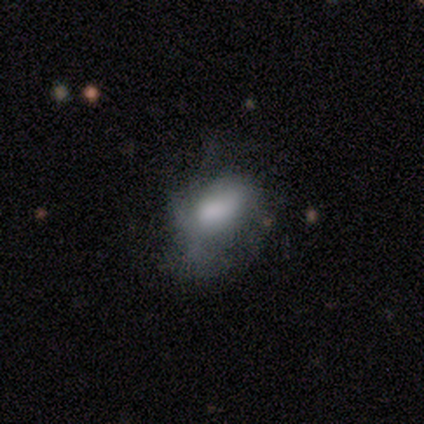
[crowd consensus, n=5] A smooth galaxy with no disk features (80%) that is in between round and cigar-shaped (75%). Merging: none (50%, tied with major disturbance).